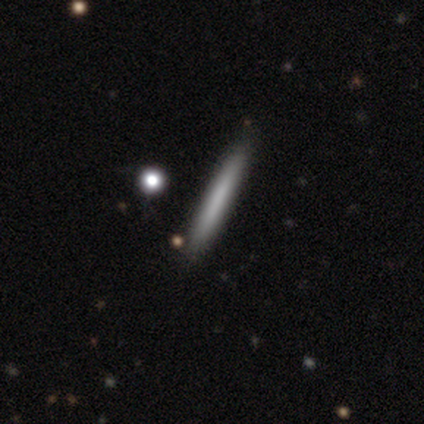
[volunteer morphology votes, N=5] Volunteers were most divided on "smooth or featured": smooth: 80%, featured or disk: 20%, star or artifact: 0%. More confident: how rounded — cigar-shaped (100%); merging — none (80%).